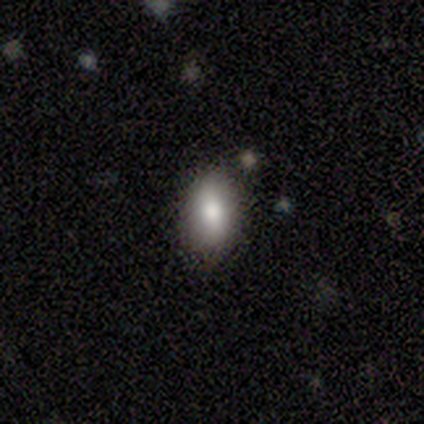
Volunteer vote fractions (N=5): A smooth galaxy with no disk features (40%, tied with featured or disk) that is in between round and cigar-shaped (100%). Merging: none (100%).